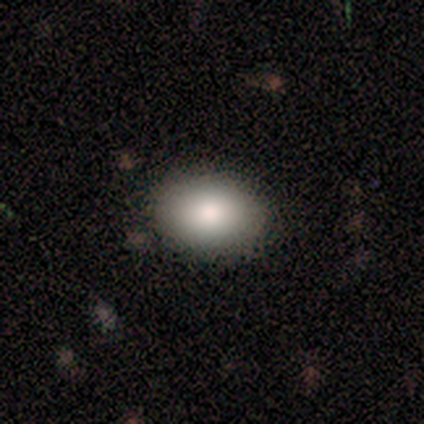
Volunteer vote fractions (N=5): This appears to be a smooth galaxy with no disk features (100%) that is in between round and cigar-shaped (100%). Merging: none (100%).